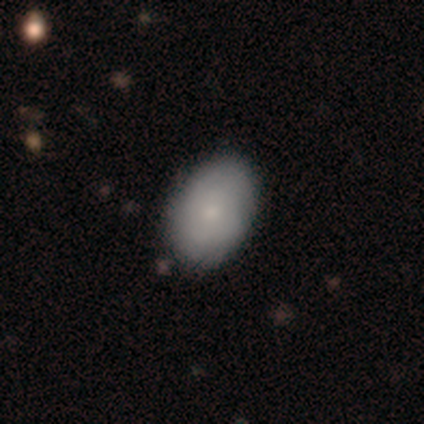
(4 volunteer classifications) Morphology: type=smooth (75%); roundness=in between (100%); merging=none (100%).